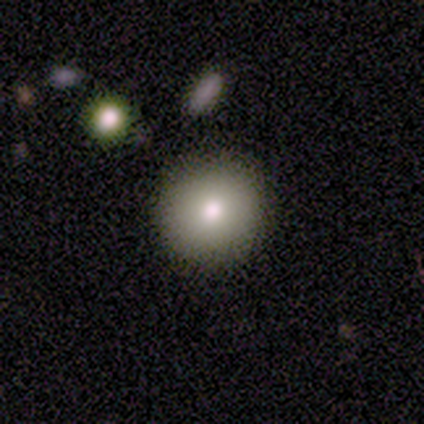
Smooth or featured: smooth — 100%
How rounded: round — 100%
Merging: none — 80% (minor disturbance — 20%)